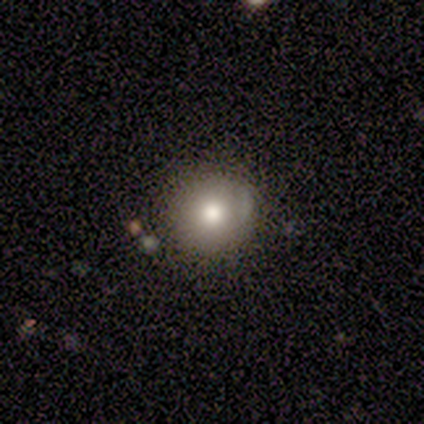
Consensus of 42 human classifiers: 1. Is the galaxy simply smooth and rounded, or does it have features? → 79% smooth, 14% featured or disk, 7% star or artifact.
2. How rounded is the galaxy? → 94% round, 6% in between, 0% cigar-shaped.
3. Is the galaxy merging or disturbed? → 74% none, 15% minor disturbance, 5% major disturbance, 5% merger.